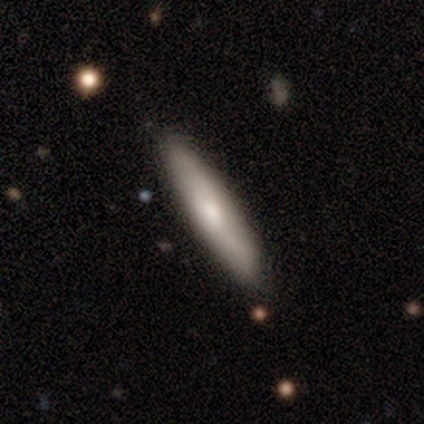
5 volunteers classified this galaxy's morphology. smooth-or-featured: smooth: 60% | featured or disk: 20% | star or artifact: 20%
  how-rounded: cigar-shaped: 100% | round: 0% | in between: 0%
  merging: none: 50% (tied) | minor disturbance: 50% (tied) | major disturbance: 0% | merger: 0%